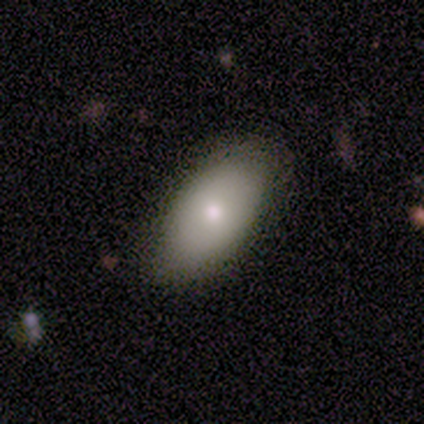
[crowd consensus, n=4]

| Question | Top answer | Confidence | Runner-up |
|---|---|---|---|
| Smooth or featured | smooth | 75% | featured or disk (25%) |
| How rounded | in between | 67% | round (33%) |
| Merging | none | 75% | minor disturbance (25%) |